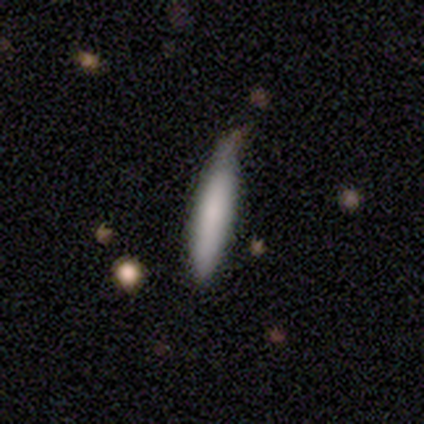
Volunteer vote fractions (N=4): smooth_or_featured: smooth (p=0.75) [alt: star or artifact p=0.25]
how_rounded: cigar-shaped (p=0.67) [alt: in between p=0.33]
merging: none (p=0.67) [alt: minor disturbance p=0.33]